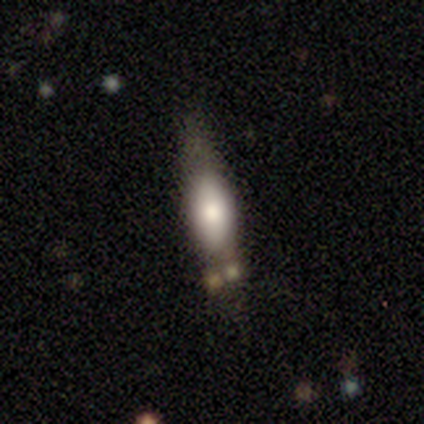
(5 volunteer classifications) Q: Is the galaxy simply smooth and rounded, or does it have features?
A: smooth — 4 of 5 (80%).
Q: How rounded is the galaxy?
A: in between — 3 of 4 (75%).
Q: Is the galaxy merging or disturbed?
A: none — 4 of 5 (80%).